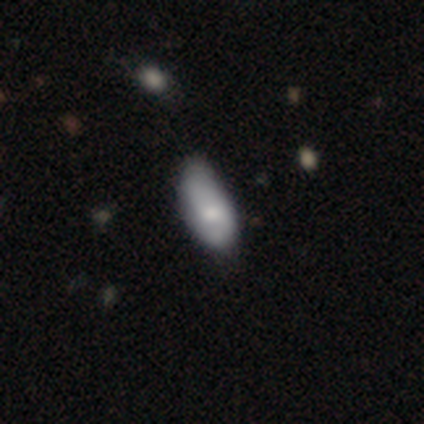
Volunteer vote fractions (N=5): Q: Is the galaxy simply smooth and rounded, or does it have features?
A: smooth — 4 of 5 (80%).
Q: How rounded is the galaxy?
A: in between — 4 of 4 (100%).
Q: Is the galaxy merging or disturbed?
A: none — 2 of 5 (40%, tied with minor disturbance).